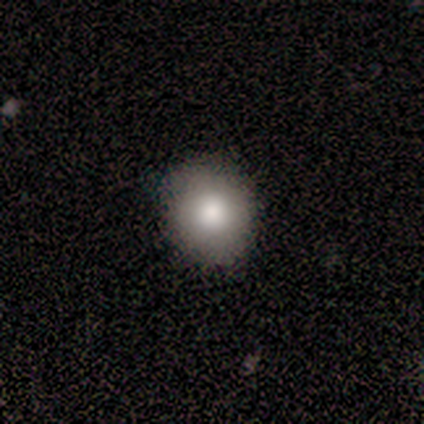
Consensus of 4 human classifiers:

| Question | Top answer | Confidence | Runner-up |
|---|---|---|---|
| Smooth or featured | smooth | 50% | tied: featured or disk (50%) |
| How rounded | round | 50% | tied: in between (50%) |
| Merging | none | 100% | — |